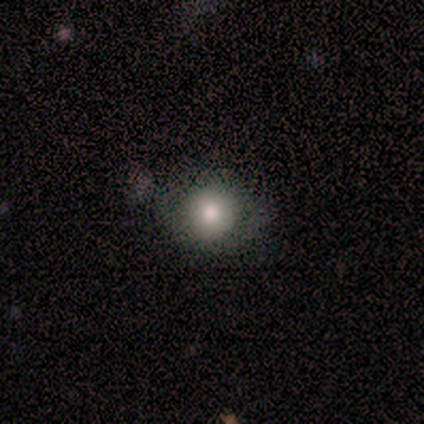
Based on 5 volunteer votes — This is likely a smooth galaxy (60%). How rounded: likely round (67%). Merging: likely none (60%).